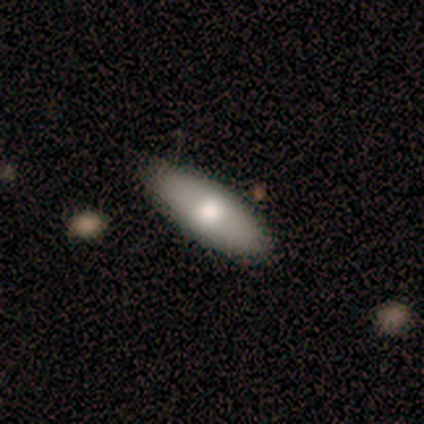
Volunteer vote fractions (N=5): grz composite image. It shows a smooth galaxy with no disk features (60%) that is in between round and cigar-shaped (67%). Merging: none (80%).